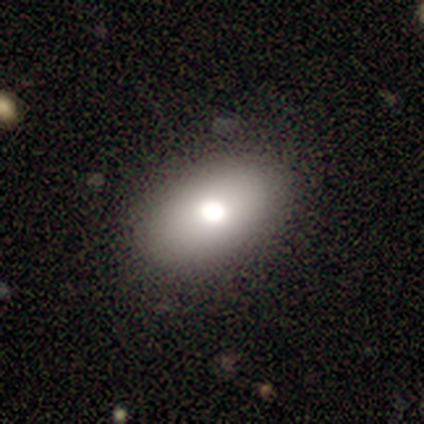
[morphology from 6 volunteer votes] smooth 83%, featured or disk 17%, star or artifact 0%. Down the decision tree: how rounded — in between (80%); merging — none (83%).